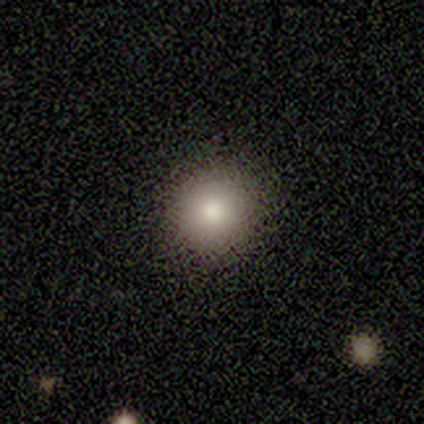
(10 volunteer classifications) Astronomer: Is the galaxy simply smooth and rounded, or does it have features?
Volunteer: smooth — 100%.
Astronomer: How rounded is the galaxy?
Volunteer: round — 80%.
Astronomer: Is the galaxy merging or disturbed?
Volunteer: none — 90%.